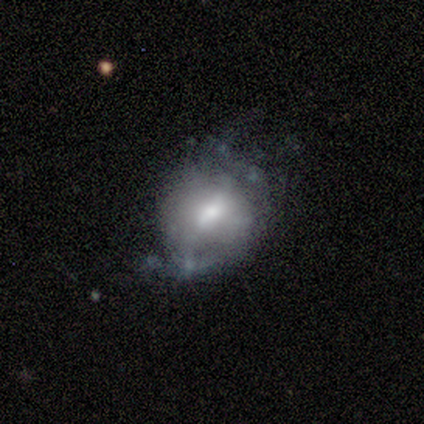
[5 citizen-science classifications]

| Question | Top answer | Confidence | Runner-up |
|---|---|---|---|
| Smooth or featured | featured or disk | 80% | smooth (20%) |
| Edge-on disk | no | 100% | — |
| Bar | weak | 50% | strong (25%) |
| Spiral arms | yes | 50% | tied: no (50%) |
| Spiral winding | medium | 100% | — |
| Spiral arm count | can't tell | 100% | — |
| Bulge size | dominant | 25% | tied: large (25%), moderate (25%), small (25%) |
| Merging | none | 40% | tied: minor disturbance (40%) |